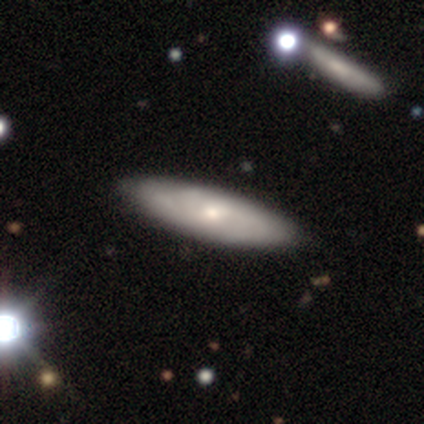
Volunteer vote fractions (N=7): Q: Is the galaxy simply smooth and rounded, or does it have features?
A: smooth — 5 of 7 (71%).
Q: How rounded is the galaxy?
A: in between — 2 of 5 (40%, tied with cigar-shaped).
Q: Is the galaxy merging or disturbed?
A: none — 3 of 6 (50%).